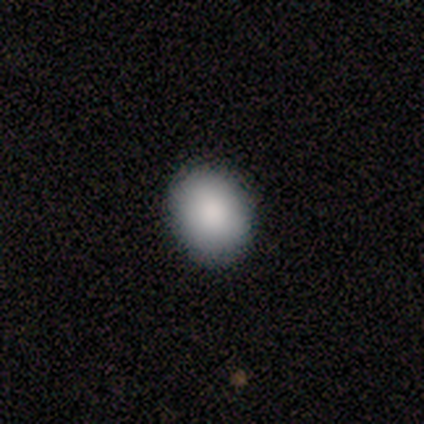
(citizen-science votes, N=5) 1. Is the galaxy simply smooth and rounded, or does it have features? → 80% smooth, 20% featured or disk, 0% star or artifact.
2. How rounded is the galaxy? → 50% round (tied), 50% in between (tied), 0% cigar-shaped.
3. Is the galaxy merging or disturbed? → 100% none, 0% minor disturbance, 0% major disturbance, 0% merger.